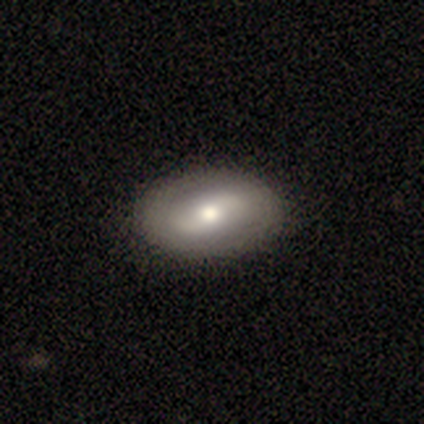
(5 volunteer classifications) A featured or disk galaxy (80%) with a strong bar (50%), 2 (50%, tied with can't tell) tight (100%) spiral arms (50%, tied with no) and a moderate central bulge (75%).

Vote fractions:
- Smooth or featured? featured or disk: 80% / smooth: 20% / star or artifact: 0%
- Edge-on disk? no: 100% / yes: 0%
- Bar? strong: 50% / weak: 25% / no: 25%
- Spiral arms? yes: 50% (tied) / no: 50% (tied)
- Spiral winding? tight: 100% / medium: 0% / loose: 0%
- Spiral arm count? 2: 50% (tied) / can't tell: 50% (tied) / 1: 0% / 3: 0% / 4: 0% / more than 4: 0%
- Bulge size? moderate: 75% / large: 25% / dominant: 0% / small: 0% / none: 0%
- Merging? none: 100% / minor disturbance: 0% / major disturbance: 0% / merger: 0%